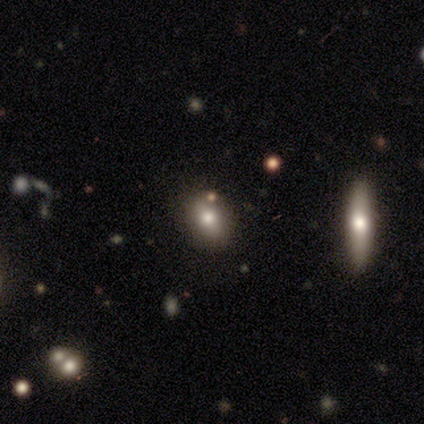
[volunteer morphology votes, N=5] Smooth or featured? 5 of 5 (100%) said smooth. How rounded? 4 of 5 (80%) said in between. Merging? 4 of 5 (80%) said none.